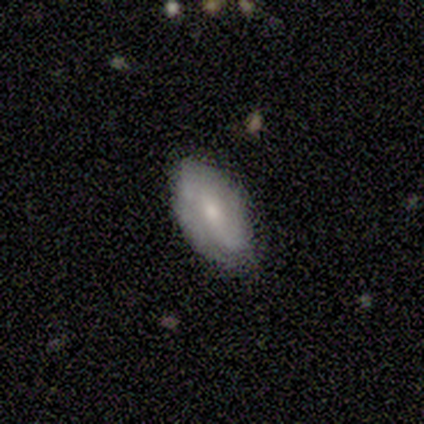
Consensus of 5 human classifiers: This appears to be a smooth galaxy with no disk features (60%) that is in between round and cigar-shaped (100%). Merging: none (60%).